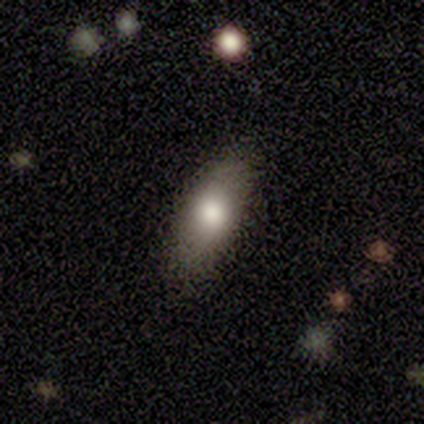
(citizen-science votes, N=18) smooth 67%, featured or disk 33%, star or artifact 0%. Down the decision tree: how rounded — in between (75%); merging — none (89%).